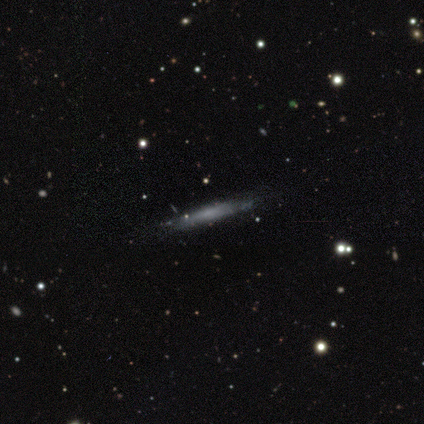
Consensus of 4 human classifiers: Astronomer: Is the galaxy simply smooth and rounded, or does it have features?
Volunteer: featured or disk — 50%.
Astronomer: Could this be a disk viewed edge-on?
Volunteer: yes — 100%.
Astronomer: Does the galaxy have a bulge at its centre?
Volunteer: none — 100%.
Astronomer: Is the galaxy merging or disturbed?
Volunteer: none — 100%.